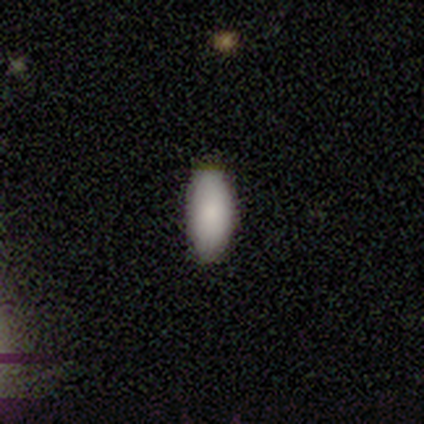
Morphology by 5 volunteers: Volunteers were most divided on "smooth or featured": smooth: 80%, featured or disk: 20%, star or artifact: 0%. More confident: how rounded — in between (100%); merging — none (100%).